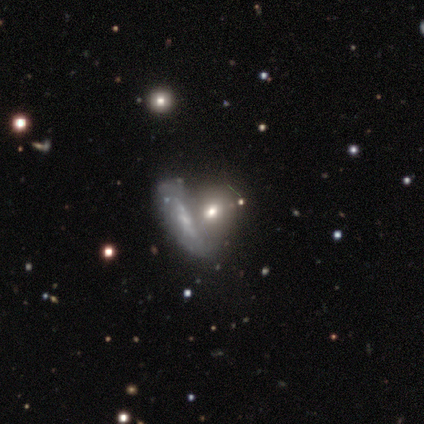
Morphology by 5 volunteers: smooth_or_featured: featured or disk (p=0.80) [alt: smooth p=0.20]
disk_edge_on: no (p=1.00)
bar: no (p=0.75) [alt: strong p=0.25]
has_spiral_arms: no (p=0.75) [alt: yes p=0.25]
bulge_size: small (p=0.50) [alt: moderate p=0.25]
merging: none (p=0.60) [alt: merger p=0.40]